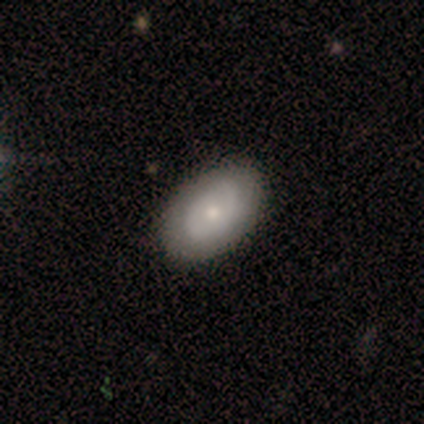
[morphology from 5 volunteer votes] A featured or disk galaxy (60%) with no bar (100%), medium (100%) spiral arms (67%) and a small central bulge (100%). Merging: none (50%, tied with minor disturbance).